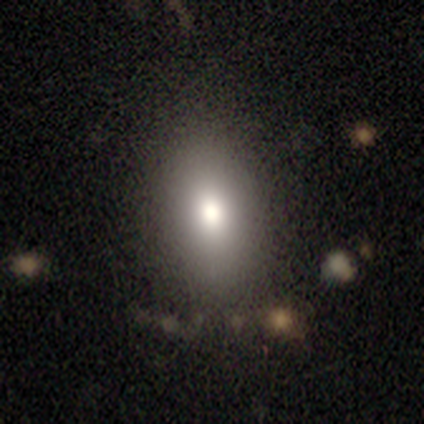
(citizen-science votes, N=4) Volunteers were most divided on "smooth or featured": smooth: 75%, featured or disk: 25%, star or artifact: 0%. More confident: how rounded — in between (100%); merging — none (100%).